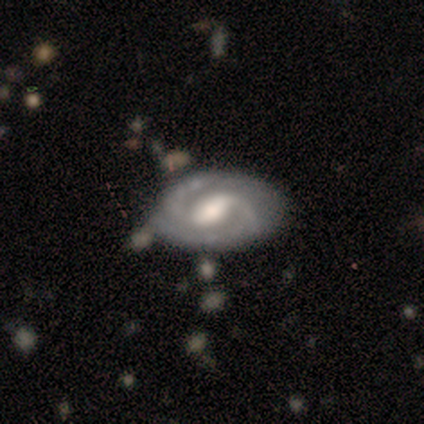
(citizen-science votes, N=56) A featured or disk galaxy (86%) with a weak bar (49%), 2 (80%) tight (51%) spiral arms (91%) and a moderate central bulge (53%).

Vote fractions:
- Smooth or featured? featured or disk: 86% / smooth: 12% / star or artifact: 2%
- Edge-on disk? no: 94% / yes: 6%
- Bar? weak: 49% / strong: 36% / no: 16%
- Spiral arms? yes: 91% / no: 9%
- Spiral winding? tight: 51% / medium: 46% / loose: 2%
- Spiral arm count? 2: 80% / 3: 10% / can't tell: 10% / 1: 0% / 4: 0% / more than 4: 0%
- Bulge size? moderate: 53% / large: 24% / small: 16% / none: 7% / dominant: 0%
- Merging? none: 60% / minor disturbance: 22% / merger: 13% / major disturbance: 5%